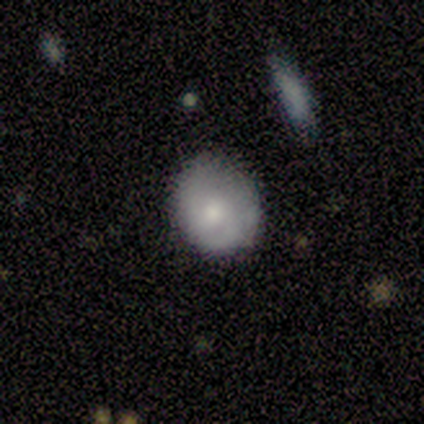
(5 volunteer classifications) smooth_or_featured: smooth (p=1.00)
how_rounded: round (p=0.60) [alt: in between p=0.40]
merging: none (p=1.00)